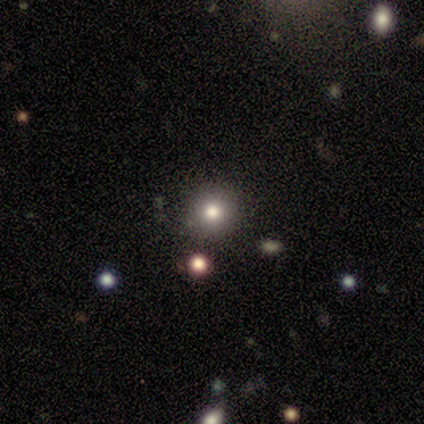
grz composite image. It shows a featured or disk galaxy (50%, tied with star or artifact) with no bar (100%), no spiral arms (100%) and a moderate central bulge (100%). Merging: none (100%).